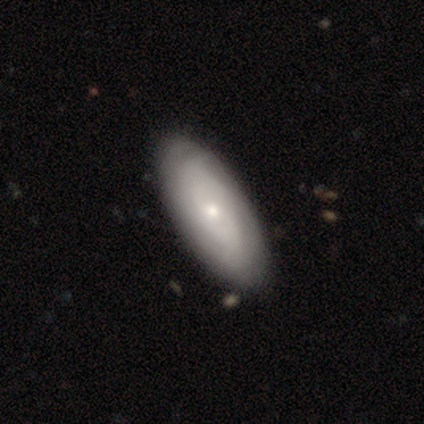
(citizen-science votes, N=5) smooth-or-featured: smooth: 80% | featured or disk: 20% | star or artifact: 0%
  how-rounded: in between: 75% | cigar-shaped: 25% | round: 0%
  merging: none: 60% | minor disturbance: 40% | major disturbance: 0% | merger: 0%